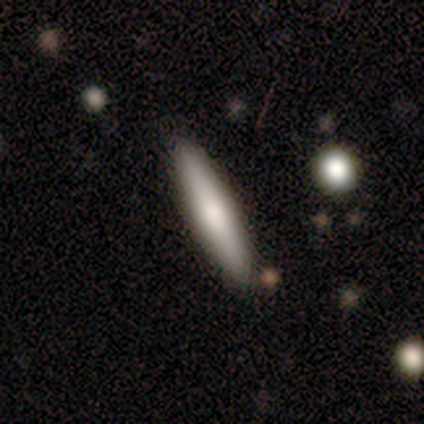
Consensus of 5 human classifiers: A smooth galaxy with no disk features (80%) that is cigar-shaped (100%).

Vote fractions:
- Smooth or featured? smooth: 80% / featured or disk: 20% / star or artifact: 0%
- How rounded? cigar-shaped: 100% / round: 0% / in between: 0%
- Merging? none: 100% / minor disturbance: 0% / major disturbance: 0% / merger: 0%